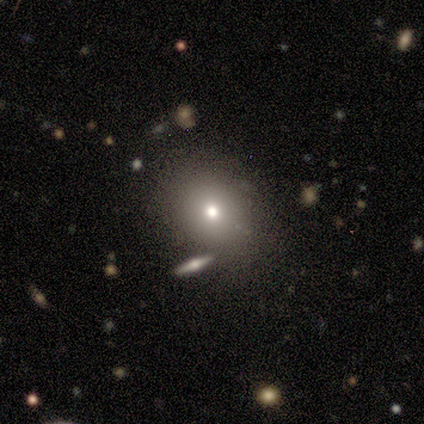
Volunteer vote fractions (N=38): This appears to be a smooth galaxy with no disk features (58%) that is round (64%). Merging: none (74%).